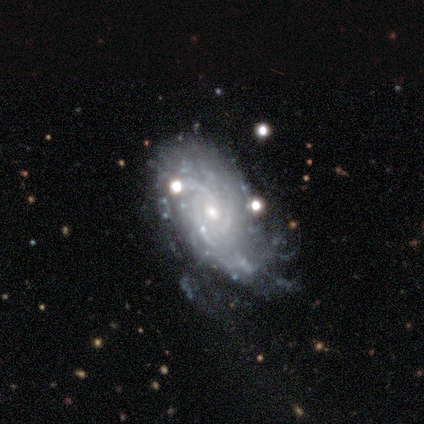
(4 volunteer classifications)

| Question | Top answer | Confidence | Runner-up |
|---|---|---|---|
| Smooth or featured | featured or disk | 75% | smooth (25%) |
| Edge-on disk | no | 100% | — |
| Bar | no | 100% | — |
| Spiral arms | yes | 100% | — |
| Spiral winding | tight | 67% | medium (33%) |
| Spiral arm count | can't tell | 67% | 4 (33%) |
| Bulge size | small | 67% | moderate (33%) |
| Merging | minor disturbance | 50% | tied: major disturbance (50%) |